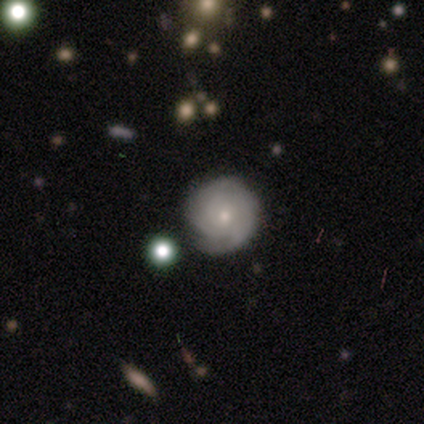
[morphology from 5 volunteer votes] Smooth or featured? 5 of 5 (100%) said featured or disk. Edge-on disk? 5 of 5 (100%) said no. Bar? 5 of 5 (100%) said no. Spiral arms? 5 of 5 (100%) said yes. Spiral winding? 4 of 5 (80%) said tight. Spiral arm count? 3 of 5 (60%) said can't tell. Bulge size? 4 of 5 (80%) said small. Merging? 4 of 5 (80%) said none.